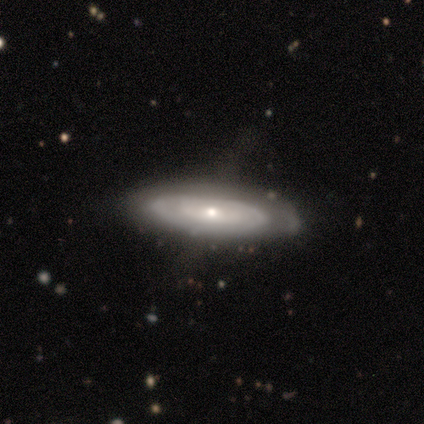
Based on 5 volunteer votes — featured or disk 60%, smooth 40%, star or artifact 0%. Down the decision tree: edge-on disk — no (100%); bar — no (100%); spiral arms — yes (100%); spiral arm count — 2 (67%); spiral winding — tight (100%); bulge size — moderate (100%); merging — none (60%).